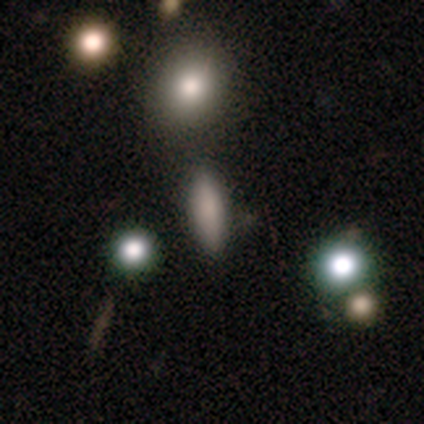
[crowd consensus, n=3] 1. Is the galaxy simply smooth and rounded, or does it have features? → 100% smooth, 0% featured or disk, 0% star or artifact.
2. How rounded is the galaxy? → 67% in between, 33% cigar-shaped, 0% round.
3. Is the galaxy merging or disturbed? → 33% none (tied), 33% minor disturbance (tied), 33% merger (tied), 0% major disturbance.